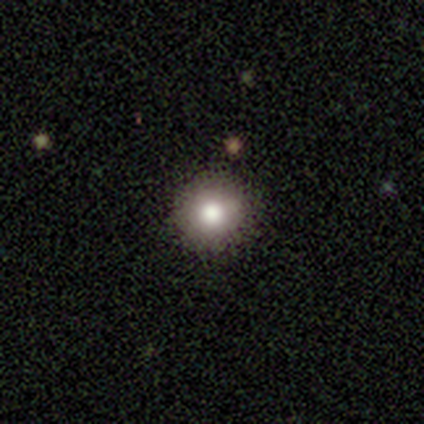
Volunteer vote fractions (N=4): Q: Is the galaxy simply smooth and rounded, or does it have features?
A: smooth — 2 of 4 (50%).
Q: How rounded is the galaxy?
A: round — 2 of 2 (100%).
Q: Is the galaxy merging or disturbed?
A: none — 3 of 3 (100%).